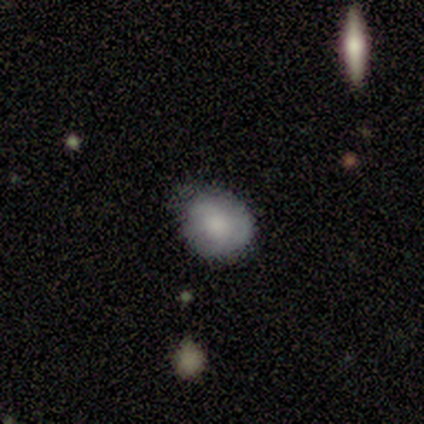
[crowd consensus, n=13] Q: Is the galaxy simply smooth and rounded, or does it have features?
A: smooth — 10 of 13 (77%).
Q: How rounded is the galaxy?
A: round — 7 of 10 (70%).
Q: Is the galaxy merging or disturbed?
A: minor disturbance — 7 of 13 (54%).